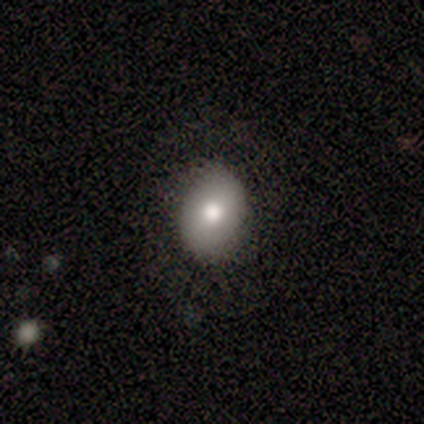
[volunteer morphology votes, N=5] A smooth galaxy with no disk features (80%) that is in between round and cigar-shaped (75%).

Vote fractions:
- Smooth or featured? smooth: 80% / star or artifact: 20% / featured or disk: 0%
- How rounded? in between: 75% / round: 25% / cigar-shaped: 0%
- Merging? none: 100% / minor disturbance: 0% / major disturbance: 0% / merger: 0%